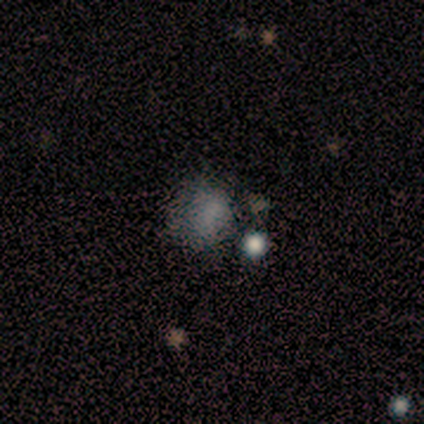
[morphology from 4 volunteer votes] Volunteers were most divided on "smooth or featured" (2-way tie): smooth: 50%, star or artifact: 50%, featured or disk: 0%; "how rounded" (2-way tie): round: 50%, in between: 50%, cigar-shaped: 0%; "merging" (2-way tie): none: 50%, merger: 50%, minor disturbance: 0%, major disturbance: 0%.